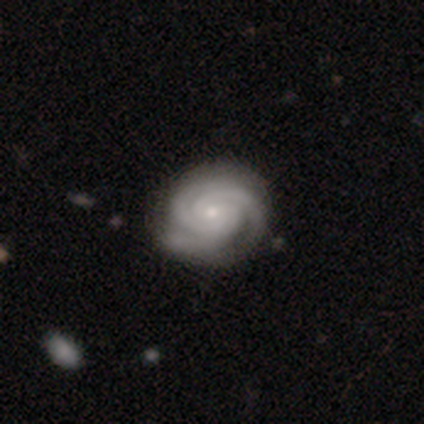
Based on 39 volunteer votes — Smooth or featured? 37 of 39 (95%) said featured or disk. Edge-on disk? 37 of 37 (100%) said no. Bar? 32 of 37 (86%) said no. Spiral arms? 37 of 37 (100%) said yes. Spiral winding? 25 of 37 (68%) said tight. Spiral arm count? 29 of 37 (78%) said 3. Bulge size? 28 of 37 (76%) said small. Merging? 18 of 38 (47%) said none.